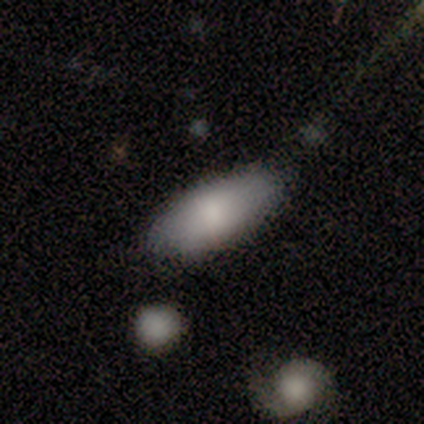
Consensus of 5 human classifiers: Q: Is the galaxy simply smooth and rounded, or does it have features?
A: smooth — 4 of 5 (80%).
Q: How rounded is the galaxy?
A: in between — 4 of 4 (100%).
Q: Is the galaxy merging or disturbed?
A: none — 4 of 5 (80%).